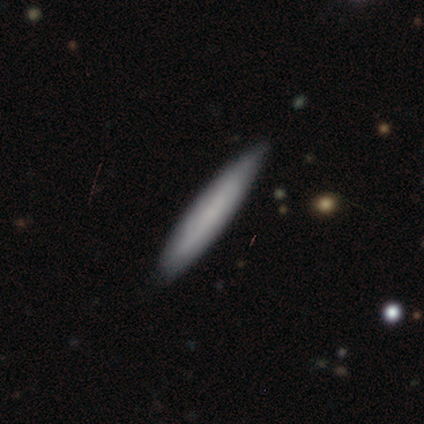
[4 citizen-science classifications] Q: Smooth or featured?
A: smooth (75%); runner-up: featured or disk (25%)
Q: How rounded?
A: cigar-shaped (100%)
Q: Merging?
A: none (100%)